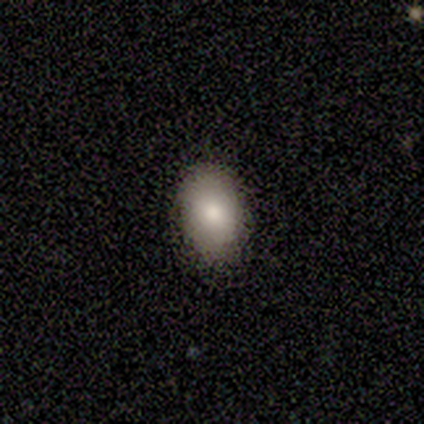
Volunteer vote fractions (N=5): This appears to be a smooth galaxy with no disk features (100%) that is in between round and cigar-shaped (80%). Merging: none (100%).